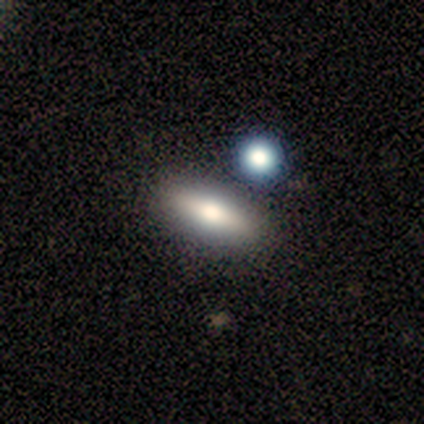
Q: Smooth or featured?
A: smooth (75%); runner-up: star or artifact (25%)
Q: How rounded?
A: cigar-shaped (67%); runner-up: in between (33%)
Q: Merging?
A: merger (67%); runner-up: none (33%)